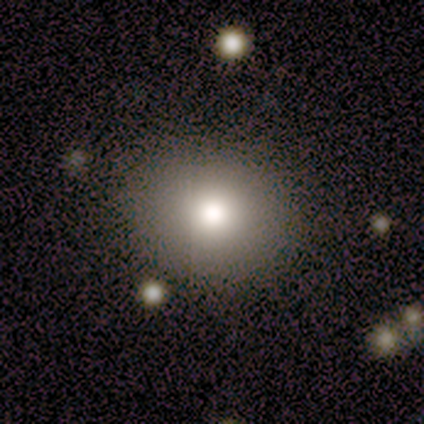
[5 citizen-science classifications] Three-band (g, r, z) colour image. It shows a smooth galaxy with no disk features (60%) that is round (67%). Merging: none (100%).